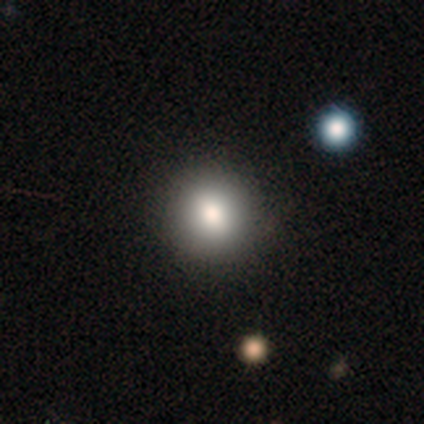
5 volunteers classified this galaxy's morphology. Smooth or featured? smooth (100%)
How rounded? round (100%)
Merging? none (80%)